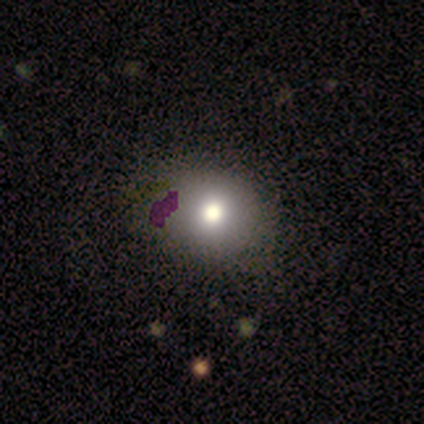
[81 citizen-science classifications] smooth 80%, star or artifact 12%, featured or disk 7%. Down the decision tree: how rounded — round (85%); merging — none (48%).